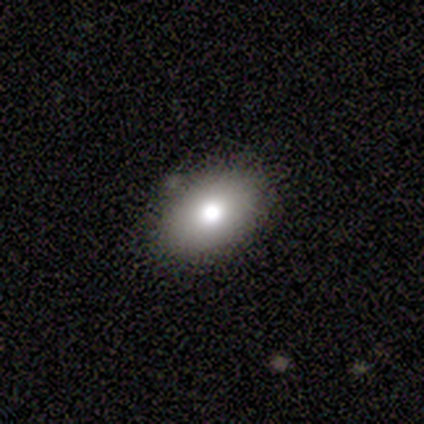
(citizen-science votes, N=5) Smooth or featured?
  - smooth: 60% *
  - star or artifact: 40%
  - featured or disk: 0%
How rounded?
  - in between: 100% *
  - round: 0%
  - cigar-shaped: 0%
Merging?
  - none: 100% *
  - minor disturbance: 0%
  - major disturbance: 0%
  - merger: 0%